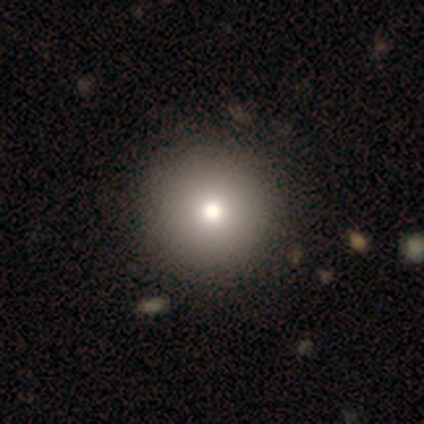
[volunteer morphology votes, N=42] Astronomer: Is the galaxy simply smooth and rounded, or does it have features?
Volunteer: smooth — 83%.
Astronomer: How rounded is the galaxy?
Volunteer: round — 100%.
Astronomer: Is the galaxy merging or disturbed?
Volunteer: none — 55%.